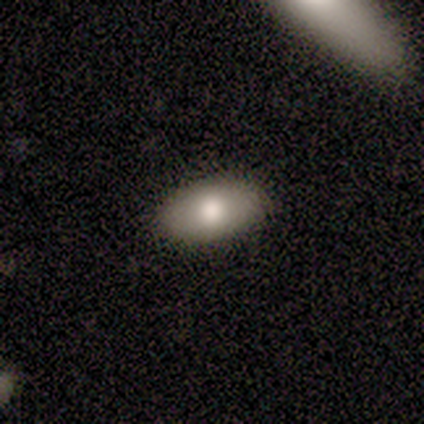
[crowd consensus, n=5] A smooth galaxy with no disk features (100%) that is in between round and cigar-shaped (100%). Merging: none (80%).